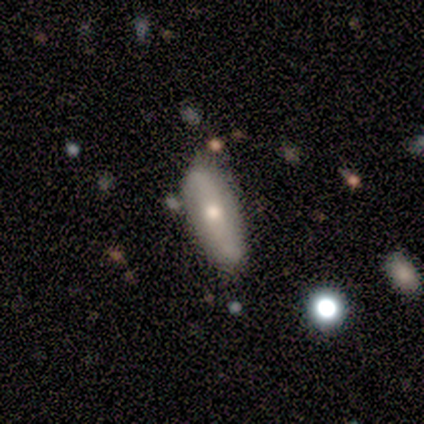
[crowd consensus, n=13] A featured or disk galaxy (54%) with a strong bar (50%, tied with no), 2 (100%) loose (100%) spiral arms (50%, tied with no) and a moderate central bulge (75%). Merging: none (69%).